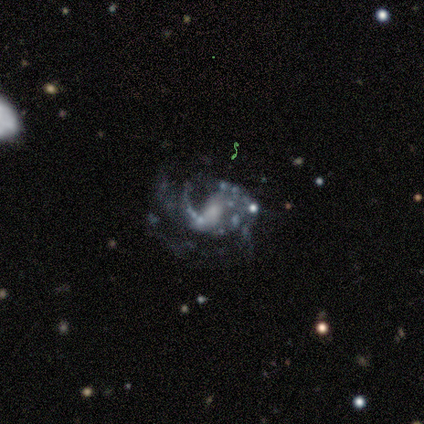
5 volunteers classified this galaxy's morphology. smooth_or_featured: featured or disk (p=1.00)
disk_edge_on: no (p=1.00)
bar: weak (p=0.60) [alt: strong p=0.20]
has_spiral_arms: yes (p=1.00)
spiral_winding: medium (p=1.00)
spiral_arm_count: 2 (p=0.40) [alt: 1 p=0.20]
bulge_size: small (p=0.60) [alt: moderate p=0.20]
merging: major disturbance (p=0.60) [alt: minor disturbance p=0.40]